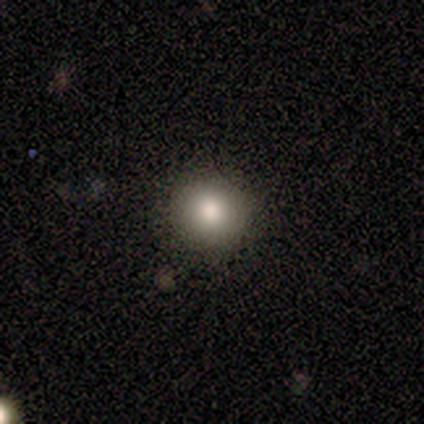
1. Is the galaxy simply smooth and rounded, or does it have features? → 100% smooth, 0% featured or disk, 0% star or artifact.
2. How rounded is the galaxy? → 80% round, 20% in between, 0% cigar-shaped.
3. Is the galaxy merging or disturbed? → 100% none, 0% minor disturbance, 0% major disturbance, 0% merger.